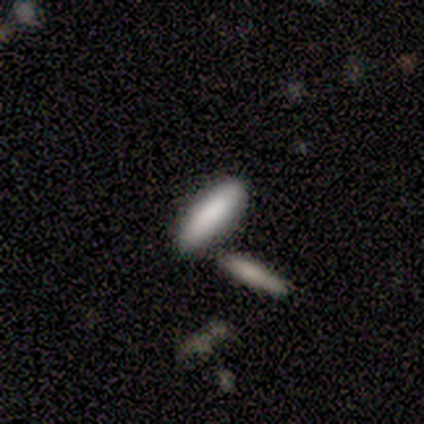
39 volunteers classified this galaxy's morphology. This appears to be a smooth galaxy with no disk features (82%) that is cigar-shaped (69%). Merging: none (61%).